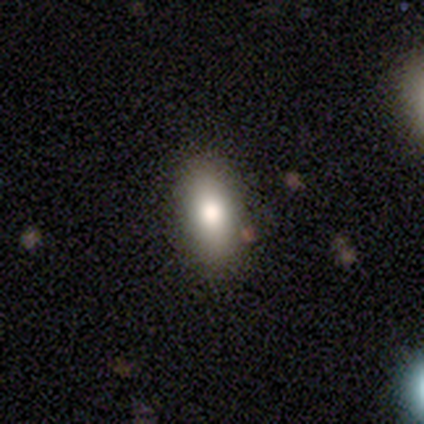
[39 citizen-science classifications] A smooth galaxy with no disk features (79%) that is in between round and cigar-shaped (74%). Merging: none (97%).